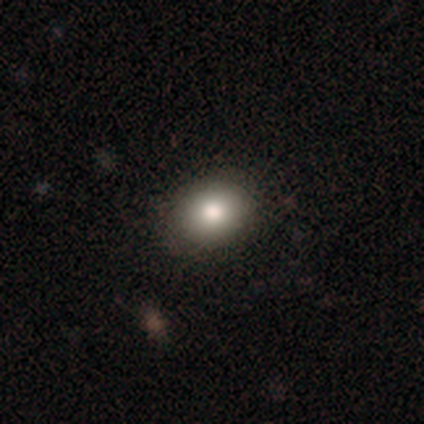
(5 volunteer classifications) Volunteers were most divided on "how rounded": in between: 75%, round: 25%, cigar-shaped: 0%. More confident: merging — none (100%); smooth or featured — smooth (80%).